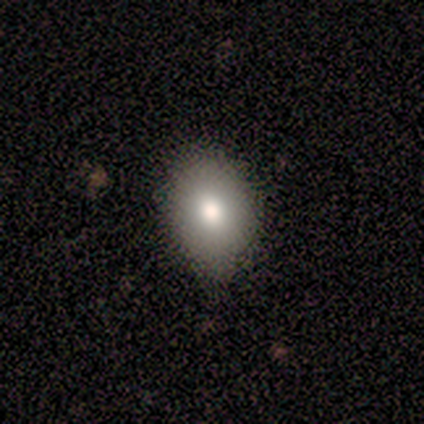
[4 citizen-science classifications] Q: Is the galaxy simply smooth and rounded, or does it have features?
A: smooth — 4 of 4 (100%).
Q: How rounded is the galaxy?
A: in between — 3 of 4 (75%).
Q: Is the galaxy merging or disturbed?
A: none — 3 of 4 (75%).